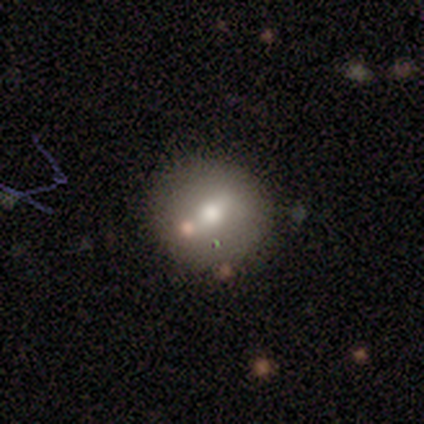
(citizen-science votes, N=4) Q: Smooth or featured?
A: smooth (50%); tied with: featured or disk (50%)
Q: How rounded?
A: round (100%)
Q: Merging?
A: none (75%); runner-up: merger (25%)